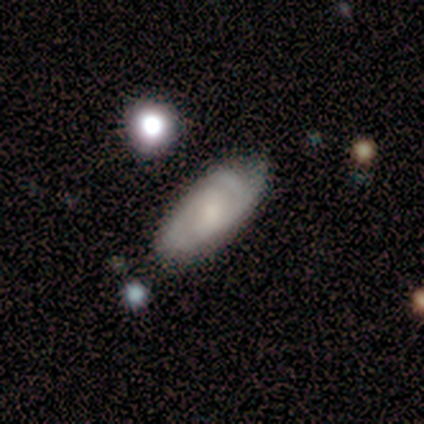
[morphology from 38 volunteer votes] This appears to be a featured or disk galaxy (47%) with a weak bar (56%), 2 (64%) tight (57%) spiral arms (88%) and a moderate central bulge (38%, tied with small). Merging: none (60%).